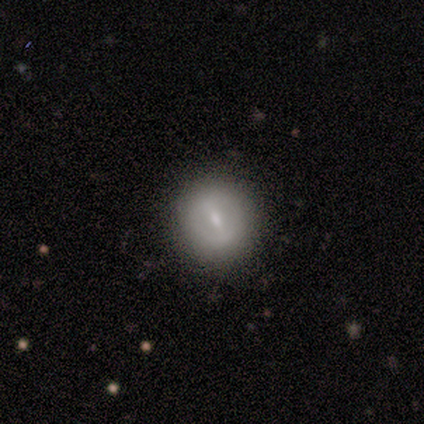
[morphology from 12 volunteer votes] smooth-or-featured: smooth: 75% | featured or disk: 25% | star or artifact: 0%
  how-rounded: round: 78% | in between: 11% | cigar-shaped: 11%
  merging: none: 83% | minor disturbance: 17% | major disturbance: 0% | merger: 0%